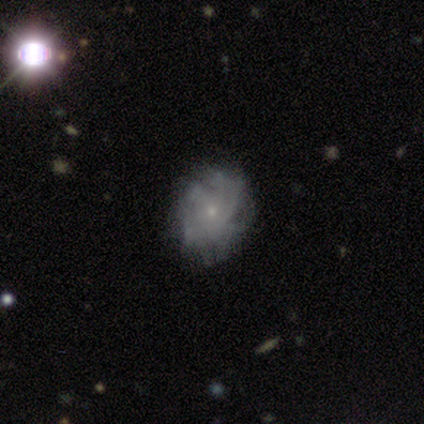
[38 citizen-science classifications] Smooth or featured: featured or disk — 71% (smooth — 24%)
Edge-on disk: no — 100%
Bar: no — 93% (weak — 7%)
Spiral arms: yes — 89% (no — 11%)
Spiral winding: medium — 46% (tight — 33%)
Spiral arm count: can't tell — 50% (more than 4 — 42%)
Bulge size: small — 81% (moderate — 19%)
Merging: none — 42% (major disturbance — 14%)